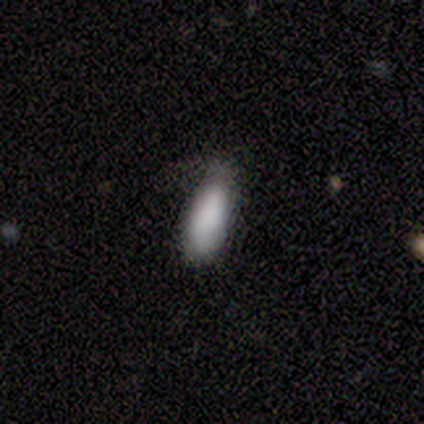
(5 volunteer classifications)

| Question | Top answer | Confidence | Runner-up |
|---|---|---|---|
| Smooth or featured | smooth | 80% | featured or disk (20%) |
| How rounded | in between | 75% | cigar-shaped (25%) |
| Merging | none | 60% | minor disturbance (20%) |